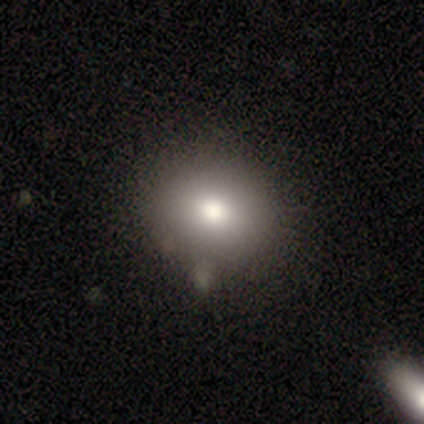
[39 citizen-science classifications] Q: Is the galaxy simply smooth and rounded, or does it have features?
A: smooth — 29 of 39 (74%).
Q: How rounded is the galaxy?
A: round — 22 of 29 (76%).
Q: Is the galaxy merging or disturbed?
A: none — 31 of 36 (86%).